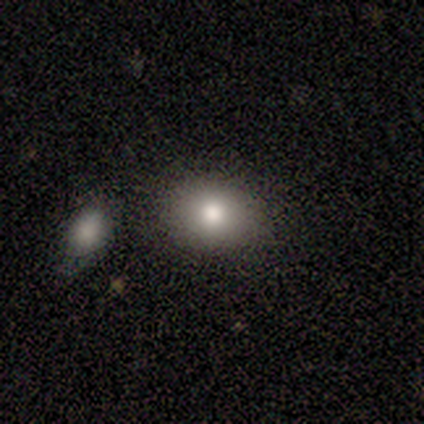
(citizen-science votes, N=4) A smooth galaxy with no disk features (100%) that is round (50%, tied with in between). Merging: none (100%).